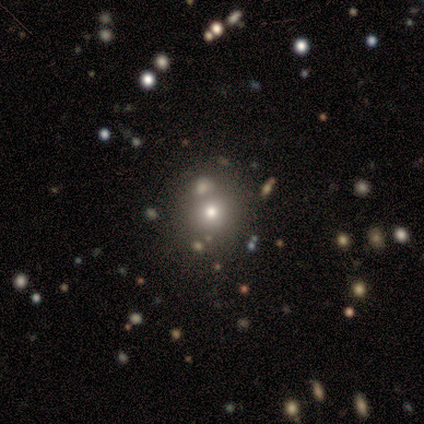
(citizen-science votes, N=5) smooth_or_featured: smooth (p=0.60) [alt: star or artifact p=0.40]
how_rounded: round (p=0.67) [alt: in between p=0.33]
merging: none (p=0.33) [tied with: major disturbance p=0.33, merger p=0.33]